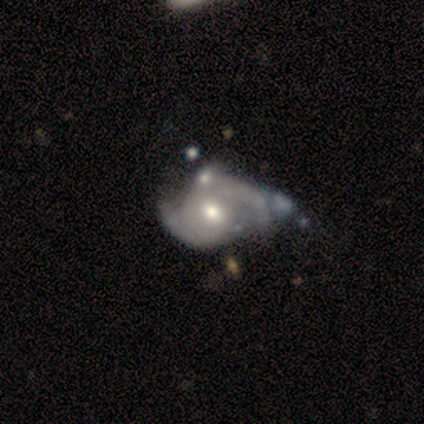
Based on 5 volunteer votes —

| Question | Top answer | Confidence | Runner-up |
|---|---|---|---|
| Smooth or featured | featured or disk | 80% | star or artifact (20%) |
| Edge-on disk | no | 100% | — |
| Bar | weak | 75% | no (25%) |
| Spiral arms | yes | 100% | — |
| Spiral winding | medium | 100% | — |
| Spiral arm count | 2 | 100% | — |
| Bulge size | moderate | 75% | small (25%) |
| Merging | major disturbance | 50% | none (25%) |